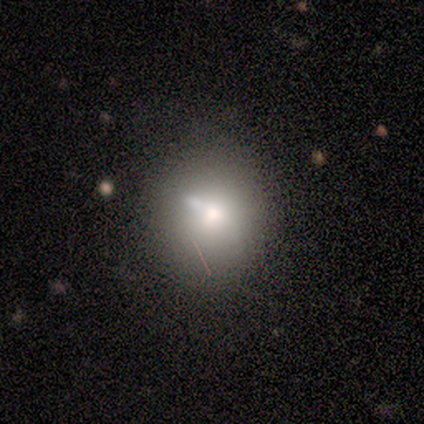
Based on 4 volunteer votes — A smooth galaxy with no disk features (50%) that is round (100%). Merging: none (67%).